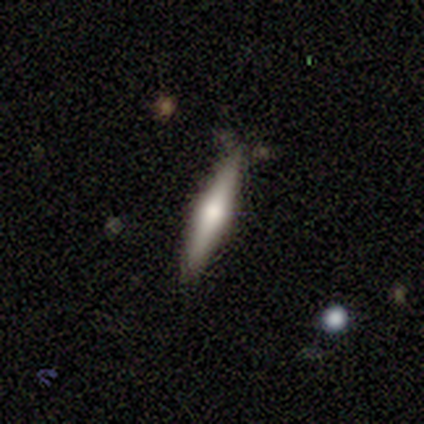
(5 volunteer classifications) This appears to be a smooth galaxy with no disk features (60%) that is cigar-shaped (100%). Merging: none (100%).